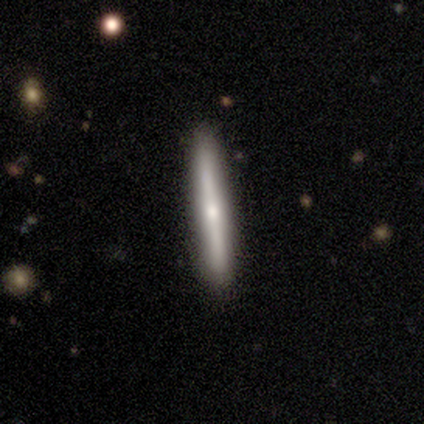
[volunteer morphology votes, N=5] A featured or disk galaxy (60%) viewed edge-on (100%) with a rounded central bulge (67%). Merging: none (100%).